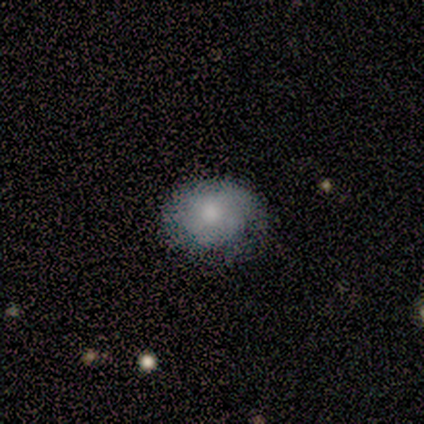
A featured or disk galaxy (67%) viewed edge-on (50%, tied with no) with a boxy central bulge (100%). Merging: none (33%, tied with minor disturbance and major disturbance).